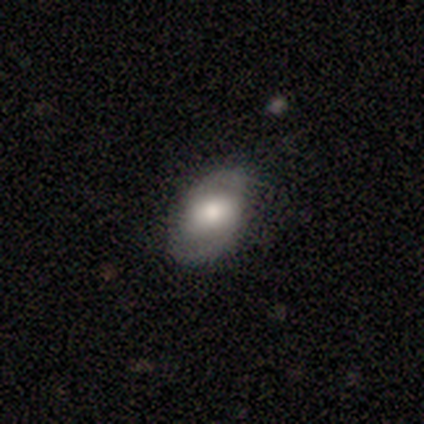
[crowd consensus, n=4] Smooth or featured? 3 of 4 (75%) said featured or disk. Edge-on disk? 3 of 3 (100%) said no. Bar? 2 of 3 (67%) said no. Spiral arms? 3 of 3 (100%) said no. Bulge size? 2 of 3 (67%) said moderate. Merging? 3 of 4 (75%) said none.